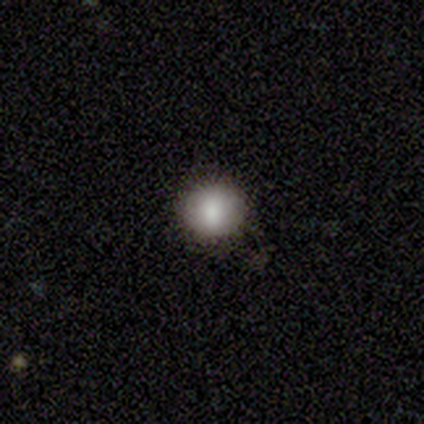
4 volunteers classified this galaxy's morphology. type=smooth (75%); roundness=round (100%); merging=none (100%).